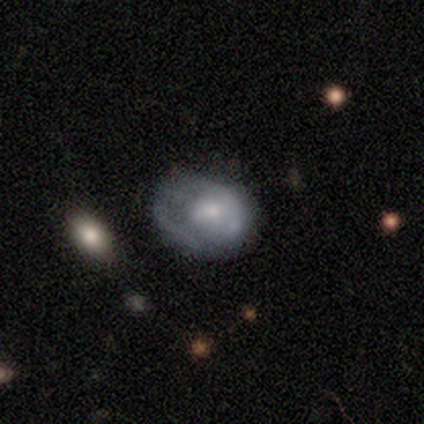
Smooth or featured: smooth — 80% (featured or disk — 20%)
How rounded: round — 100%
Merging: major disturbance — 60% (none — 20%)